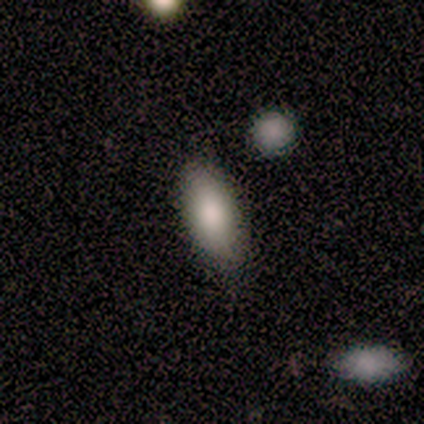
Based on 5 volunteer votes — A smooth galaxy with no disk features (100%) that is in between round and cigar-shaped (80%).

Vote fractions:
- Smooth or featured? smooth: 100% / featured or disk: 0% / star or artifact: 0%
- How rounded? in between: 80% / cigar-shaped: 20% / round: 0%
- Merging? none: 100% / minor disturbance: 0% / major disturbance: 0% / merger: 0%